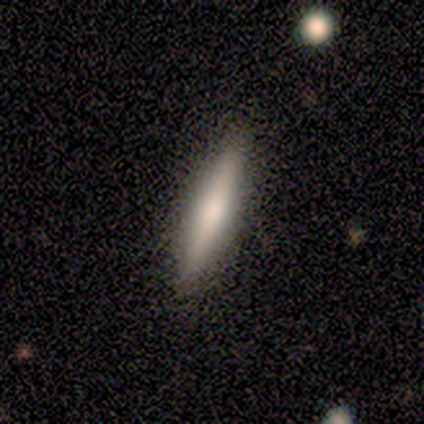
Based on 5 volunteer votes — smooth-or-featured: featured or disk: 60% | smooth: 40% | star or artifact: 0%
  disk-edge-on: yes: 100% | no: 0%
    edge-on-bulge: rounded: 67% | none: 33% | boxy: 0%
  merging: none: 80% | major disturbance: 20% | minor disturbance: 0% | merger: 0%